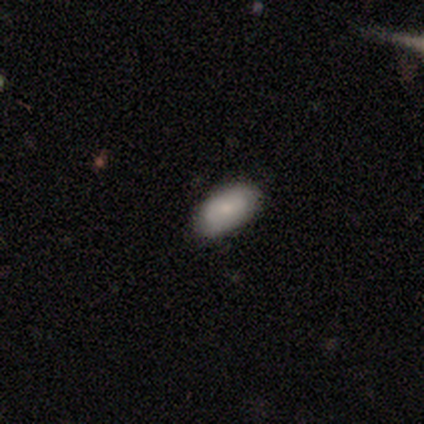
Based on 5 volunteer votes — Smooth or featured? 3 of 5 (60%) said featured or disk. Edge-on disk? 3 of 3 (100%) said no. Bar? 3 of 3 (100%) said no. Spiral arms? 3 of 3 (100%) said yes. Spiral winding? 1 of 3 (33%, tied with medium and loose) said tight. Spiral arm count? 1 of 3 (33%, tied with 3 and can't tell) said 1. Bulge size? 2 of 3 (67%) said small. Merging? 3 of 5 (60%) said none.